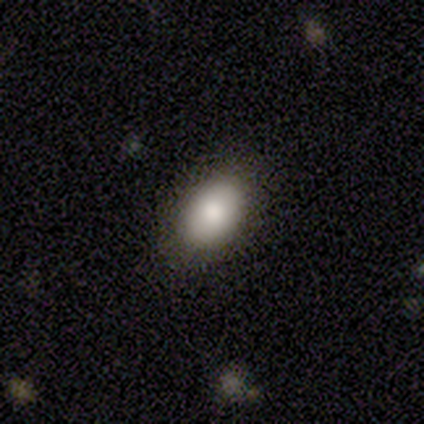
Volunteers were most divided on "smooth or featured": smooth: 80%, featured or disk: 20%, star or artifact: 0%. More confident: how rounded — in between (100%); merging — none (100%).